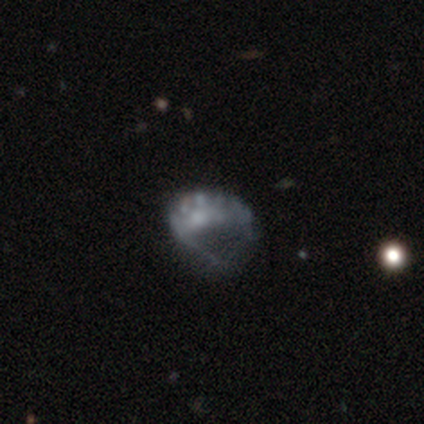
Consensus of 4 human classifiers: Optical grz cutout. It shows a featured or disk galaxy (100%) with a weak bar (50%), no spiral arms (75%) and a moderate central bulge (50%). Merging: major disturbance (50%).